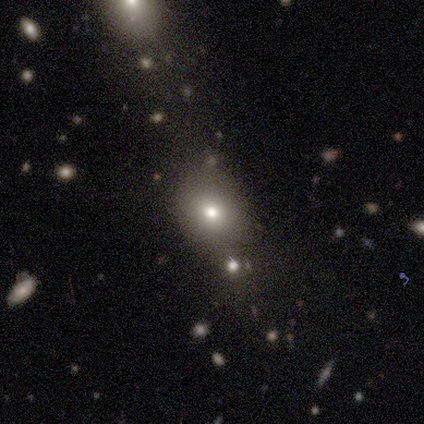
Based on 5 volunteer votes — Q: Smooth or featured?
A: smooth (80%); runner-up: star or artifact (20%)
Q: How rounded?
A: round (50%); tied with: in between (50%)
Q: Merging?
A: none (100%)